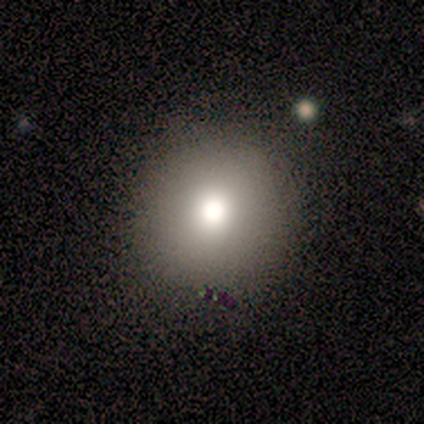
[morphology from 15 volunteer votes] This appears to be a smooth galaxy with no disk features (60%) that is round (100%). Merging: none (92%).